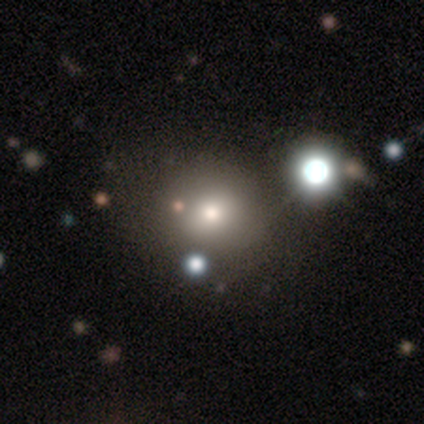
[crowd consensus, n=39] This is likely a smooth galaxy (69%). How rounded: likely round (74%). Merging: possibly none (58%).